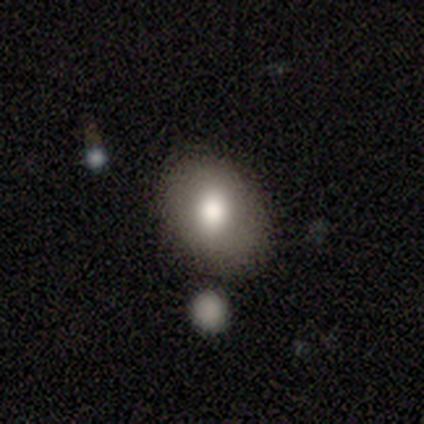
Smooth or featured? smooth (100%)
How rounded? in between (80%)
Merging? none (100%)